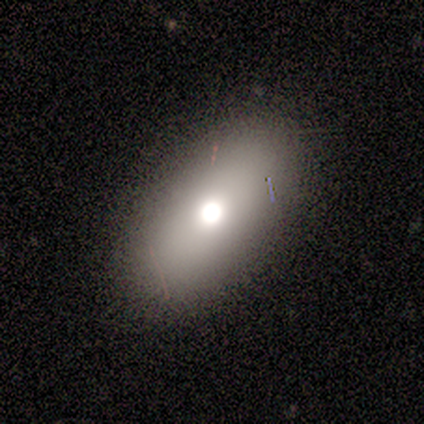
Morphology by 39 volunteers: Overall: smooth (62%; featured or disk 23%). How rounded: in between (83%). Merging: none (85%).